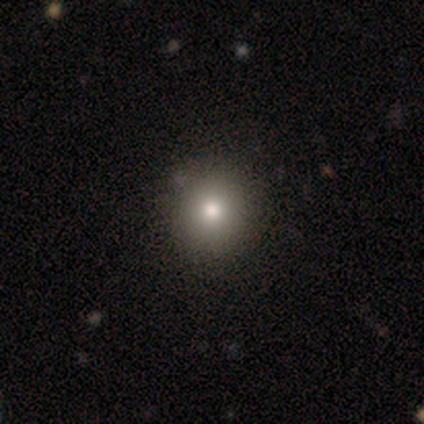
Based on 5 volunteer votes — smooth_or_featured: smooth (p=0.40) [tied with: featured or disk p=0.40]
how_rounded: round (p=0.50) [tied with: in between p=0.50]
merging: none (p=0.75) [alt: minor disturbance p=0.25]